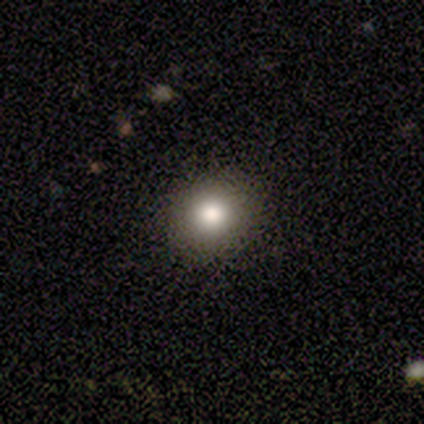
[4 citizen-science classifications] Smooth or featured? smooth (75%)
How rounded? round (100%)
Merging? none (100%)